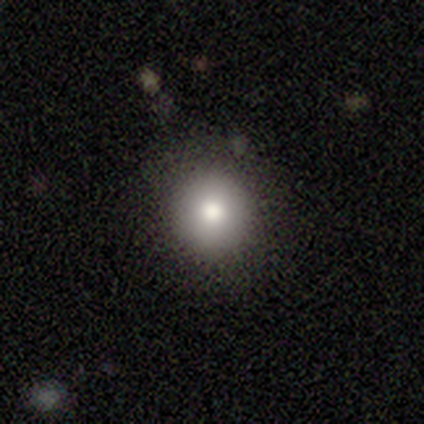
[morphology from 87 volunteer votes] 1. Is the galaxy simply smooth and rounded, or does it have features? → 78% smooth, 13% star or artifact, 9% featured or disk.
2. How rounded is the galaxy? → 90% round, 9% in between, 1% cigar-shaped.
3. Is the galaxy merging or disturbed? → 87% none, 13% minor disturbance, 0% major disturbance, 0% merger.